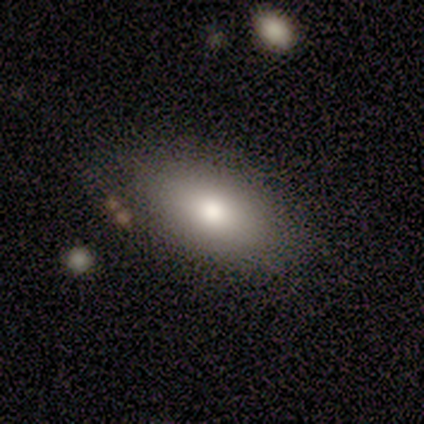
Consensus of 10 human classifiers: Smooth or featured?
  - smooth: 80% *
  - featured or disk: 20%
  - star or artifact: 0%
How rounded?
  - in between: 100% *
  - round: 0%
  - cigar-shaped: 0%
Merging?
  - none: 70% *
  - minor disturbance: 30%
  - major disturbance: 0%
  - merger: 0%